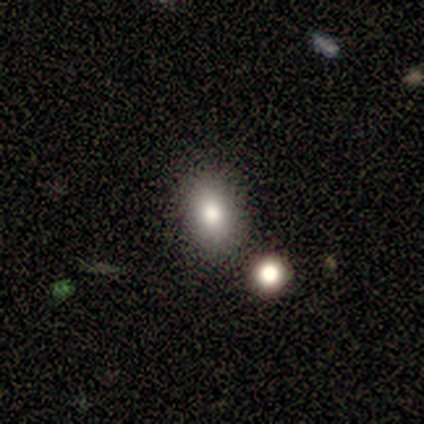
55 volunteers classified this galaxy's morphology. Volunteers were most divided on "how rounded": in between: 82%, round: 18%, cigar-shaped: 0%. More confident: merging — none (83%); smooth or featured — smooth (80%).